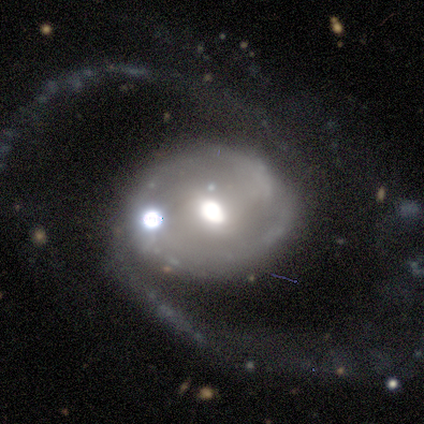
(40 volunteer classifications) A featured or disk galaxy (80%) with a weak bar (48%), 2 (82%) loose (71%) spiral arms (90%) and a moderate central bulge (68%).

Vote fractions:
- Smooth or featured? featured or disk: 80% / smooth: 15% / star or artifact: 5%
- Edge-on disk? no: 97% / yes: 3%
- Bar? weak: 48% / no: 39% / strong: 13%
- Spiral arms? yes: 90% / no: 10%
- Spiral winding? loose: 71% / medium: 21% / tight: 7%
- Spiral arm count? 2: 82% / can't tell: 11% / 1: 4% / 4: 4% / 3: 0% / more than 4: 0%
- Bulge size? moderate: 68% / large: 19% / small: 10% / dominant: 3% / none: 0%
- Merging? none: 39% / major disturbance: 29% / minor disturbance: 21% / merger: 11%